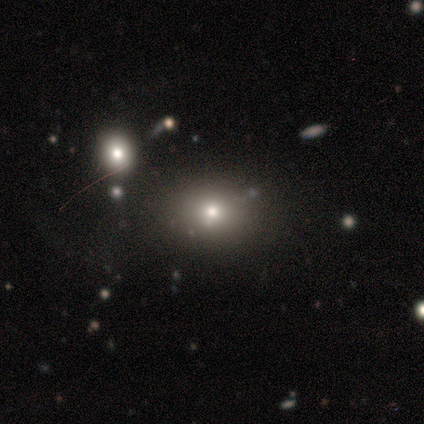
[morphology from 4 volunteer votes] Smooth or featured: smooth — 50% (tied with star or artifact — 50%)
How rounded: round — 50% (tied with in between — 50%)
Merging: none — 100%